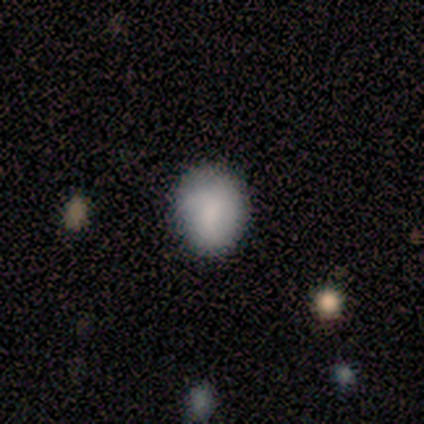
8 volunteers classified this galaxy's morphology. smooth-or-featured: smooth: 100% | featured or disk: 0% | star or artifact: 0%
  how-rounded: round: 75% | in between: 25% | cigar-shaped: 0%
  merging: none: 88% | minor disturbance: 12% | major disturbance: 0% | merger: 0%